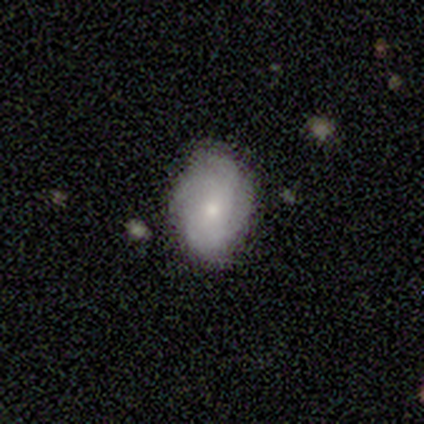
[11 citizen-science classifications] Overall: smooth (55%; featured or disk 36%). How rounded: in between (83%). Merging: none (70%; minor disturbance 30%).